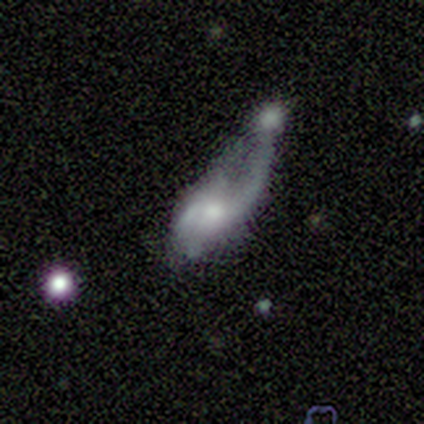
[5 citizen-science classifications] featured or disk 60%, smooth 40%, star or artifact 0%. Down the decision tree: edge-on disk — no (100%); bar — no (67%); spiral arms — yes (67%); spiral arm count — 2 (50%, tied with can't tell); spiral winding — medium (50%, tied with loose); bulge size — small (67%); merging — merger (80%).